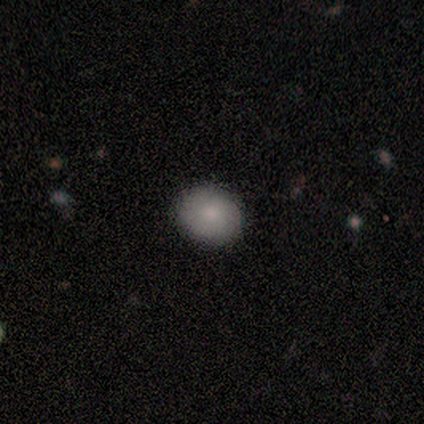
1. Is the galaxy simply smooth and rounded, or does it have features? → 100% smooth, 0% featured or disk, 0% star or artifact.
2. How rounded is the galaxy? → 75% round, 25% in between, 0% cigar-shaped.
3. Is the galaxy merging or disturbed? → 100% none, 0% minor disturbance, 0% major disturbance, 0% merger.